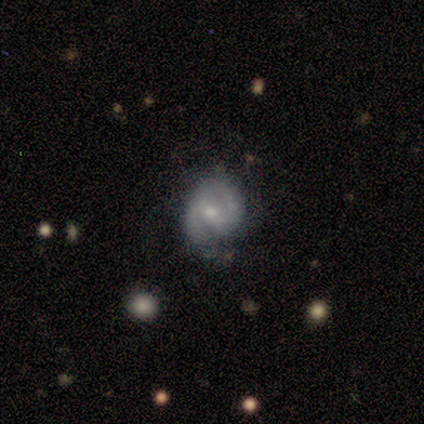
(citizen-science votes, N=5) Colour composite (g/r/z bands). It shows a featured or disk galaxy (80%) with a weak bar (50%, tied with no), 2 (75%) tight (100%) spiral arms (100%) and a small central bulge (75%). Merging: none (100%).